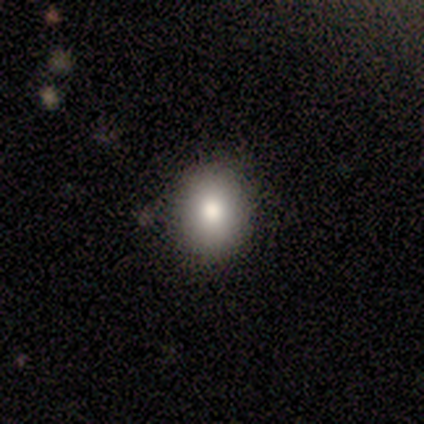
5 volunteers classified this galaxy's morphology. Smooth or featured? 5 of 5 (100%) said smooth. How rounded? 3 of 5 (60%) said round. Merging? 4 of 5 (80%) said none.